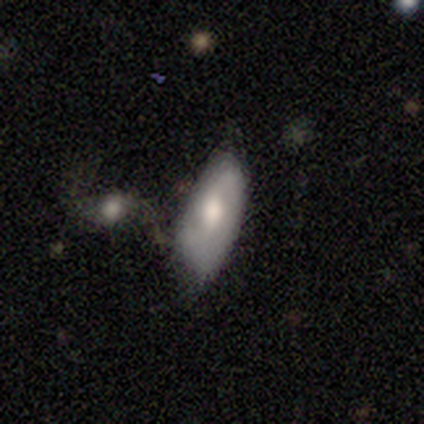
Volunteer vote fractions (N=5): smooth_or_featured: smooth (p=0.60) [alt: featured or disk p=0.40]
how_rounded: in between (p=1.00)
merging: none (p=0.60) [alt: minor disturbance p=0.40]